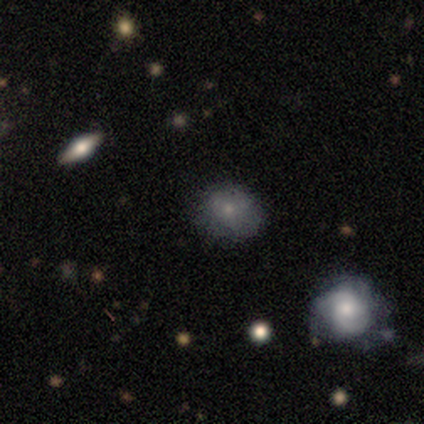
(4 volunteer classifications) Morphology: type=smooth (75%); roundness=in between (67%); merging=none (75%).